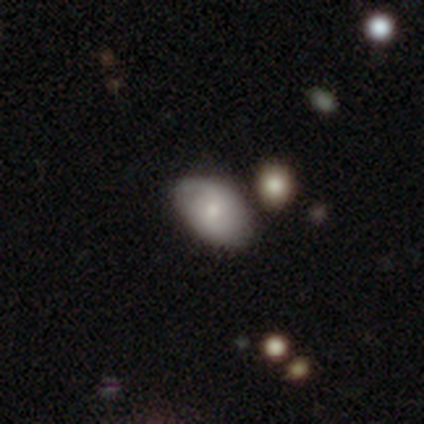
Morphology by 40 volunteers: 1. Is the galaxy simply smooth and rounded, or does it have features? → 50% smooth, 42% featured or disk, 8% star or artifact.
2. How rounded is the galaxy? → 85% in between, 15% round, 0% cigar-shaped.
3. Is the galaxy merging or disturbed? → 78% none, 14% minor disturbance, 8% merger, 0% major disturbance.